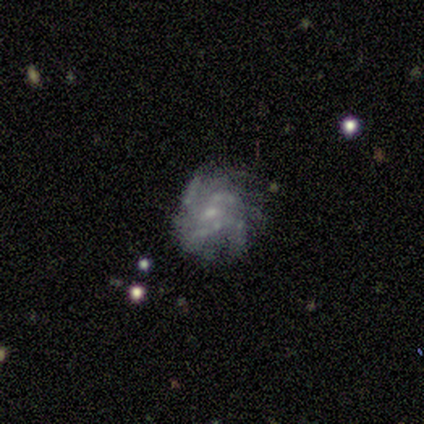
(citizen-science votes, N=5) smooth-or-featured: featured or disk: 60% | star or artifact: 40% | smooth: 0%
  disk-edge-on: no: 100% | yes: 0%
    bar: no: 67% | weak: 33% | strong: 0%
    has-spiral-arms: yes: 100% | no: 0%
      spiral-winding: medium: 67% | tight: 33% | loose: 0%
      spiral-arm-count: can't tell: 100% | 1: 0% | 2: 0% | 3: 0% | 4: 0% | more than 4: 0%
    bulge-size: small: 67% | moderate: 33% | dominant: 0% | large: 0% | none: 0%
  merging: none: 100% | minor disturbance: 0% | major disturbance: 0% | merger: 0%